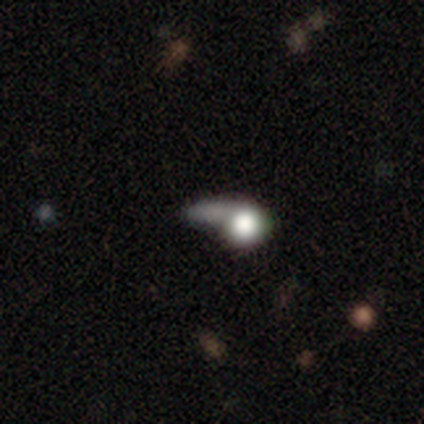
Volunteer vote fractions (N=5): smooth_or_featured: smooth (p=0.60) [alt: featured or disk p=0.20]
how_rounded: round (p=0.33) [tied with: in between p=0.33, cigar-shaped p=0.33]
merging: minor disturbance (p=0.50) [alt: none p=0.25]